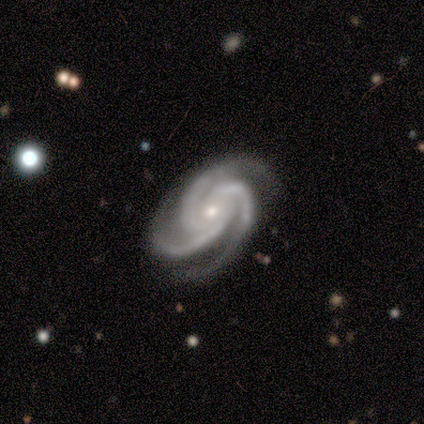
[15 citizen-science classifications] Smooth or featured: featured or disk — 100%
Edge-on disk: no — 100%
Bar: no — 80% (strong — 13%)
Spiral arms: yes — 100%
Spiral winding: tight — 67% (medium — 33%)
Spiral arm count: 3 — 87% (2 — 7%)
Bulge size: small — 80% (moderate — 13%)
Merging: none — 93% (merger — 7%)